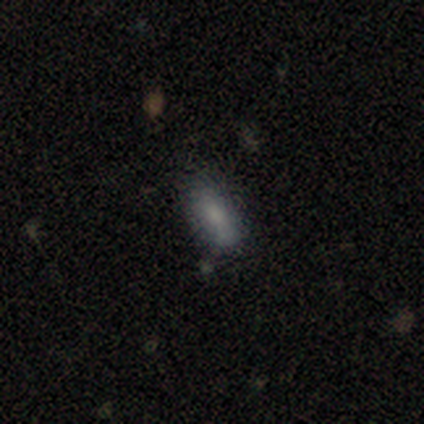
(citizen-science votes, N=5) A smooth galaxy with no disk features (100%) that is cigar-shaped (60%). Merging: none (100%).